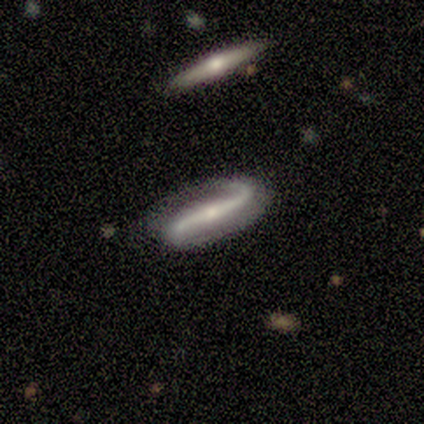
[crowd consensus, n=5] featured or disk 100%, smooth 0%, star or artifact 0%. Down the decision tree: edge-on disk — no (80%); bar — strong (75%); spiral arms — yes (100%); spiral arm count — 2 (75%); spiral winding — loose (75%); bulge size — moderate (50%, tied with small); merging — none (80%).